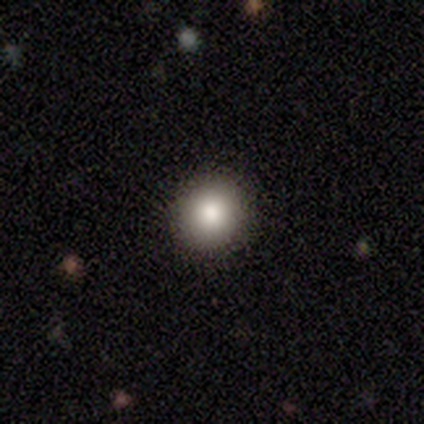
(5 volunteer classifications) This is clearly a smooth galaxy (80%). How rounded: clearly round (100%). Merging: clearly none (100%).